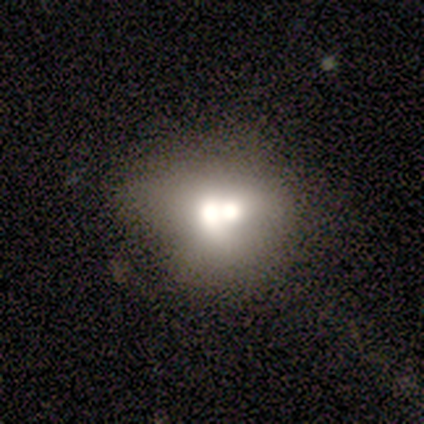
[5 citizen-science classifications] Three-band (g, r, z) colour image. It shows a featured or disk galaxy (80%) with no bar (100%), no spiral arms (100%) and a moderate central bulge (67%). Merging: merger (80%).